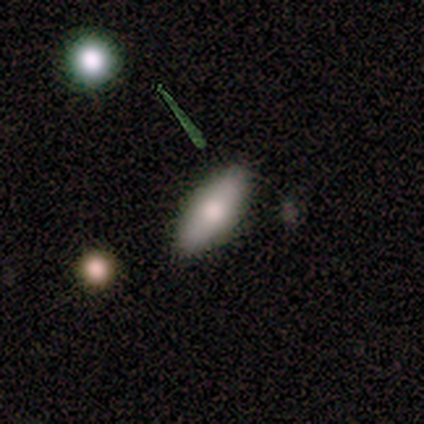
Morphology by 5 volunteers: type=smooth (40%, tied with star or artifact); roundness=in between (50%, tied with cigar-shaped); merging=none (100%).